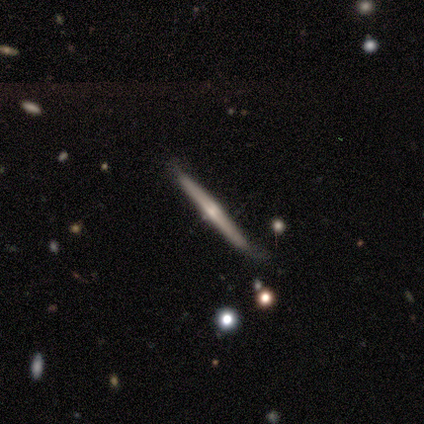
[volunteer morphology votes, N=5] smooth_or_featured: featured or disk (p=0.80) [alt: smooth p=0.20]
disk_edge_on: yes (p=1.00)
edge_on_bulge: rounded (p=0.75) [alt: none p=0.25]
merging: none (p=1.00)